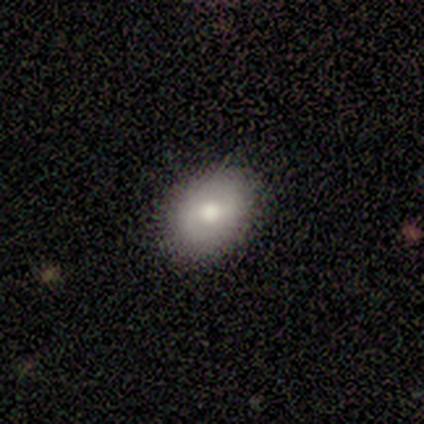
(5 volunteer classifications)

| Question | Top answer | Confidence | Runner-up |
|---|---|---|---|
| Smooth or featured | featured or disk | 60% | smooth (40%) |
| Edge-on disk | no | 100% | — |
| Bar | weak | 67% | strong (33%) |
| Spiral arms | yes | 100% | — |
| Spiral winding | tight | 33% | tied: medium (33%), loose (33%) |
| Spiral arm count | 2 | 100% | — |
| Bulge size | moderate | 67% | large (33%) |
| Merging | none | 80% | minor disturbance (20%) |